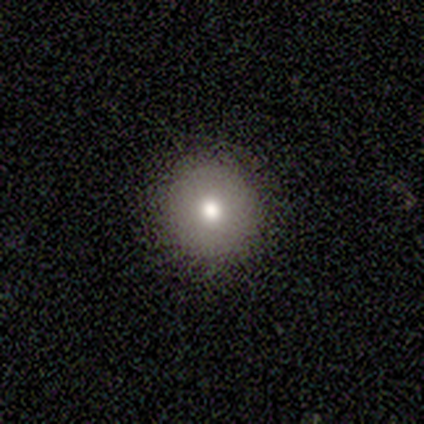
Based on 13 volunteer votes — Volunteers were most divided on "smooth or featured": smooth: 69%, featured or disk: 15%, star or artifact: 15%. More confident: how rounded — round (100%); merging — none (91%).